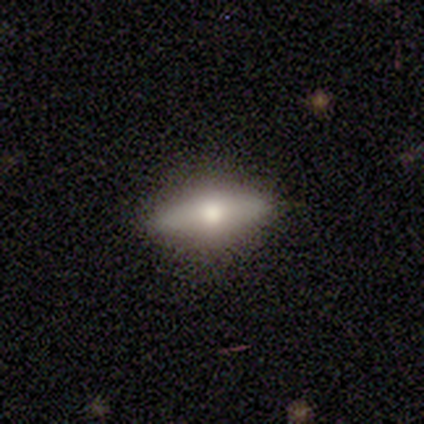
Smooth or featured? smooth (60%)
How rounded? in between (100%)
Merging? none (80%)